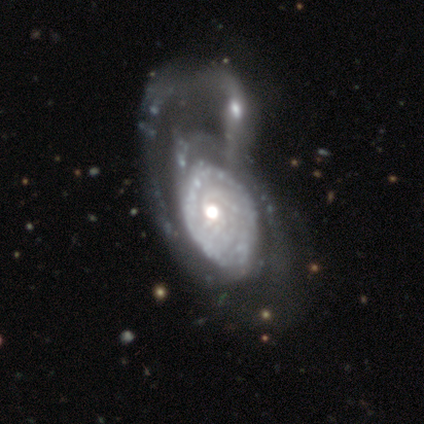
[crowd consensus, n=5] A featured or disk galaxy (80%) with no bar (75%), 2 (50%, tied with can't tell) tight (50%, tied with medium) spiral arms (50%, tied with no) and a moderate central bulge (100%).

Vote fractions:
- Smooth or featured? featured or disk: 80% / smooth: 20% / star or artifact: 0%
- Edge-on disk? no: 100% / yes: 0%
- Bar? no: 75% / strong: 25% / weak: 0%
- Spiral arms? yes: 50% (tied) / no: 50% (tied)
- Spiral winding? tight: 50% (tied) / medium: 50% (tied) / loose: 0%
- Spiral arm count? 2: 50% (tied) / can't tell: 50% (tied) / 1: 0% / 3: 0% / 4: 0% / more than 4: 0%
- Bulge size? moderate: 100% / dominant: 0% / large: 0% / small: 0% / none: 0%
- Merging? merger: 60% / major disturbance: 40% / none: 0% / minor disturbance: 0%